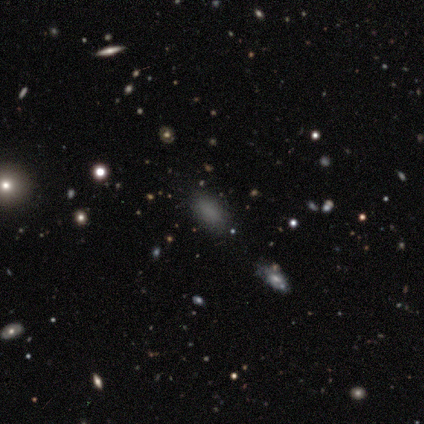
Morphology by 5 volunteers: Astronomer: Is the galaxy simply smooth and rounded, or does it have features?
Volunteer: smooth — 100%.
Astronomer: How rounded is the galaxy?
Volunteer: in between — 60% (runner-up: round, 40%).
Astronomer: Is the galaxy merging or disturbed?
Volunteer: none — 80%.